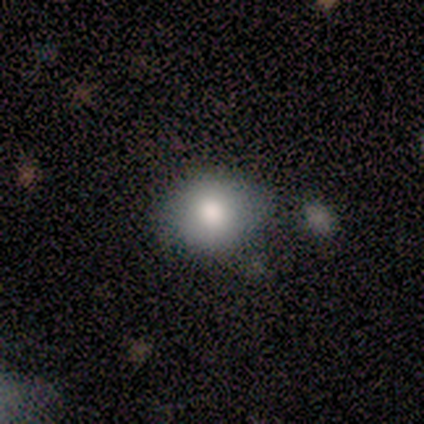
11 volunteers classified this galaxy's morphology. smooth 73%, featured or disk 18%, star or artifact 9%. Down the decision tree: how rounded — in between (75%); merging — none (80%).